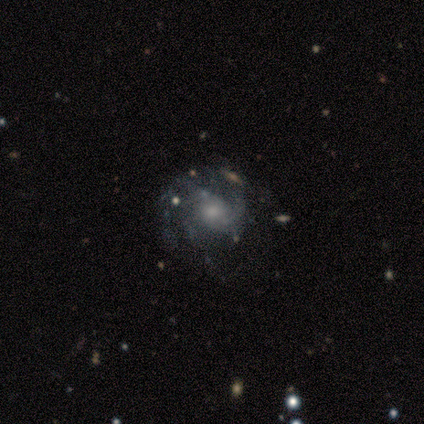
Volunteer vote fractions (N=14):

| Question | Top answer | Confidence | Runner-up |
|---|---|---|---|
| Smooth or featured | featured or disk | 79% | smooth (14%) |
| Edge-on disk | no | 91% | yes (9%) |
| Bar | no | 80% | weak (20%) |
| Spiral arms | yes | 90% | no (10%) |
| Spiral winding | medium | 56% | tight (44%) |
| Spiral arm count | can't tell | 33% | 2 (22%) |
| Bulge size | moderate | 70% | small (30%) |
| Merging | none | 92% | major disturbance (8%) |